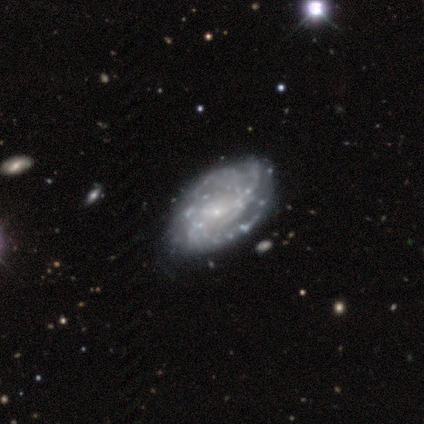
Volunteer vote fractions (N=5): This appears to be a featured or disk galaxy (100%) with a weak bar (60%), tight (60%) spiral arms (100%) and a small central bulge (100%). Merging: none (80%).